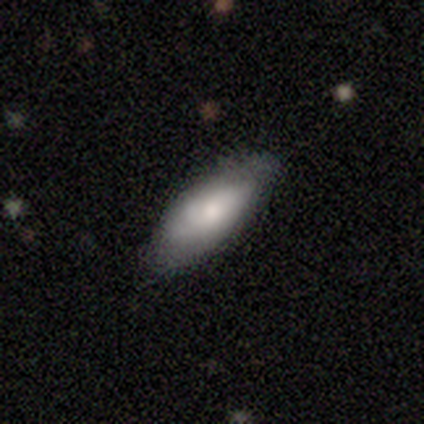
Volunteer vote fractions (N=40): A smooth galaxy with no disk features (65%) that is in between round and cigar-shaped (85%). Merging: none (75%).